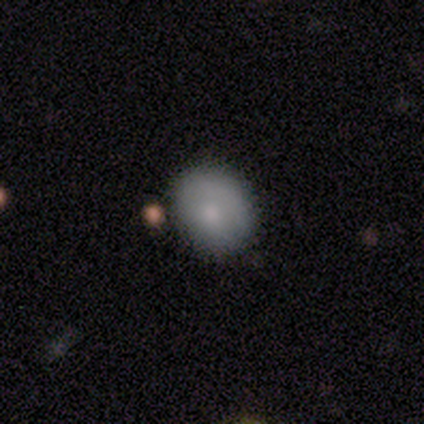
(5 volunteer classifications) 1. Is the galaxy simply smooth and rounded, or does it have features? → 100% smooth, 0% featured or disk, 0% star or artifact.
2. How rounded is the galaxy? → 60% in between, 40% round, 0% cigar-shaped.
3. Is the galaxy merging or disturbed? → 80% none, 20% minor disturbance, 0% major disturbance, 0% merger.